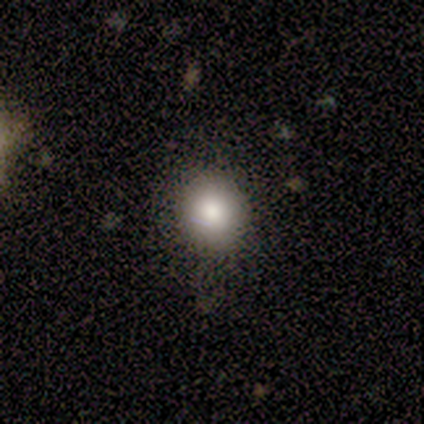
Smooth or featured?
  - smooth: 60% *
  - star or artifact: 40%
  - featured or disk: 0%
How rounded?
  - round: 100% *
  - in between: 0%
  - cigar-shaped: 0%
Merging?
  - none: 100% *
  - minor disturbance: 0%
  - major disturbance: 0%
  - merger: 0%